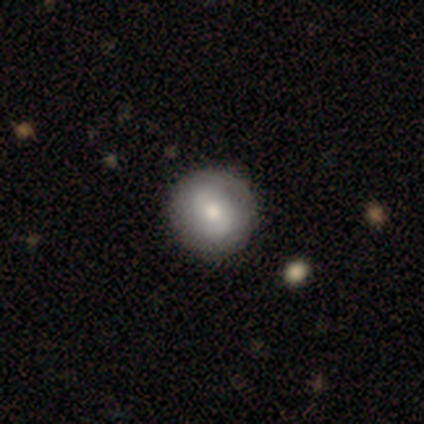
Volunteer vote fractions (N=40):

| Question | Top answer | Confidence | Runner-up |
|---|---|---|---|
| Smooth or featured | smooth | 65% | featured or disk (35%) |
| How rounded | round | 88% | in between (8%) |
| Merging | none | 62% | minor disturbance (8%) |